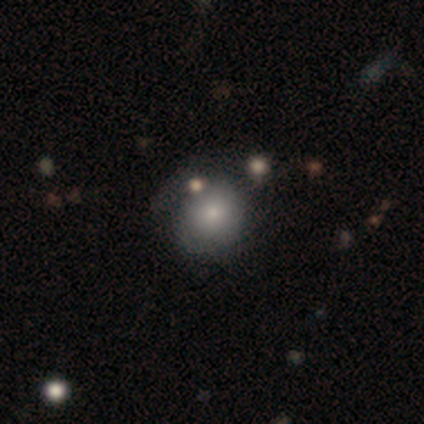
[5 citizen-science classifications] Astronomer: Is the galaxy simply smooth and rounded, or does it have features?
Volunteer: smooth — 80%.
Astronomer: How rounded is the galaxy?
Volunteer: round — 50%, tied with in between at 50%.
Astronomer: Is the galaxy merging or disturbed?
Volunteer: none — 60% (runner-up: major disturbance, 40%).